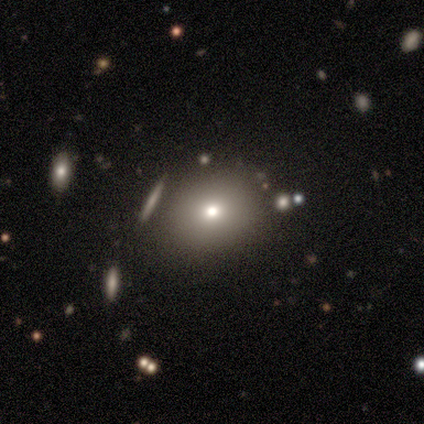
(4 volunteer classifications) Smooth or featured?
  - star or artifact: 50% *
  - smooth: 25%
  - featured or disk: 25%